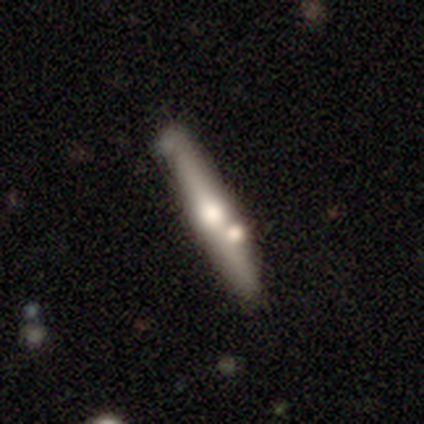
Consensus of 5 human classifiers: This appears to be a smooth galaxy with no disk features (60%) that is cigar-shaped (67%). Merging: minor disturbance (60%).